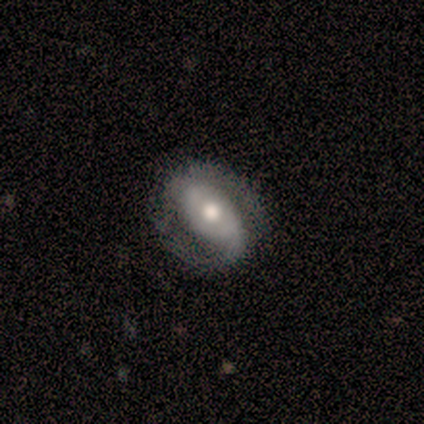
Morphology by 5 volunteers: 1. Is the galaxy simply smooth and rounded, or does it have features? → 100% featured or disk, 0% smooth, 0% star or artifact.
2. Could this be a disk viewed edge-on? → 100% no, 0% yes.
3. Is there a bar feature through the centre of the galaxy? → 40% strong (tied), 40% weak (tied), 20% no.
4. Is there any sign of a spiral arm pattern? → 100% yes, 0% no.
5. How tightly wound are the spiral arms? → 80% medium, 20% loose, 0% tight.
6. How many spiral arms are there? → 100% 2, 0% 1, 0% 3, 0% 4, 0% more than 4, 0% can't tell.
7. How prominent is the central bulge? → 80% moderate, 20% large, 0% dominant, 0% small, 0% none.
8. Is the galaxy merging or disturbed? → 100% none, 0% minor disturbance, 0% major disturbance, 0% merger.